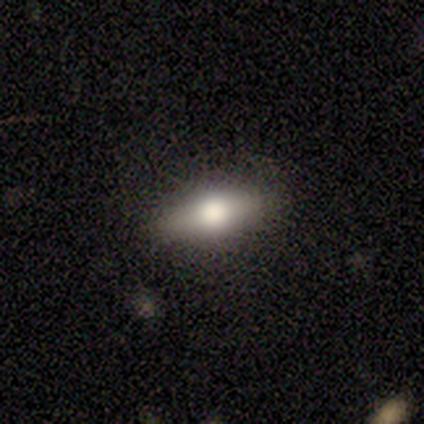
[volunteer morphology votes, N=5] Volunteers were most divided on "smooth or featured" (2-way tie): smooth: 40%, featured or disk: 40%, star or artifact: 20%. More confident: how rounded — cigar-shaped (100%); merging — none (75%).